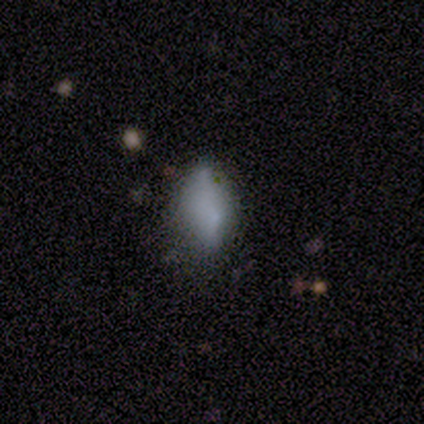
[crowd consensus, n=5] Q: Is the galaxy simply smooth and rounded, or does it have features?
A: smooth — 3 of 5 (60%).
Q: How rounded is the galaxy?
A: in between — 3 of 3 (100%).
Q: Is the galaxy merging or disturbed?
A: none — 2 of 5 (40%, tied with major disturbance).